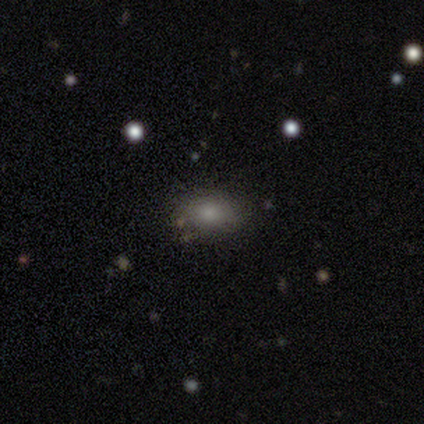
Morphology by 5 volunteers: smooth-or-featured: smooth: 100% | featured or disk: 0% | star or artifact: 0%
  how-rounded: in between: 100% | round: 0% | cigar-shaped: 0%
  merging: none: 100% | minor disturbance: 0% | major disturbance: 0% | merger: 0%